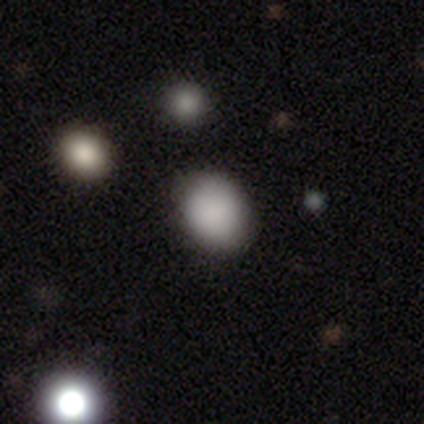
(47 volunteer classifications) Smooth or featured: smooth — 85% (star or artifact — 11%)
How rounded: in between — 50% (round — 48%)
Merging: none — 86% (minor disturbance — 12%)